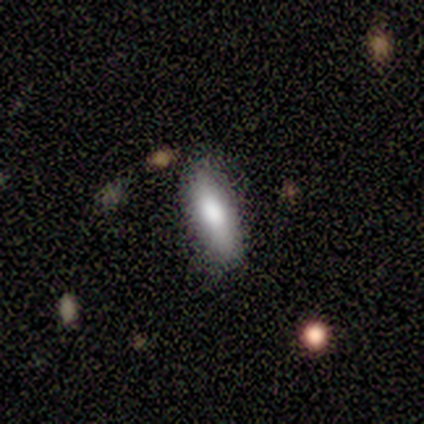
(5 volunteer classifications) smooth_or_featured: smooth (p=0.60) [alt: featured or disk p=0.40]
how_rounded: in between (p=1.00)
merging: none (p=0.80) [alt: merger p=0.20]